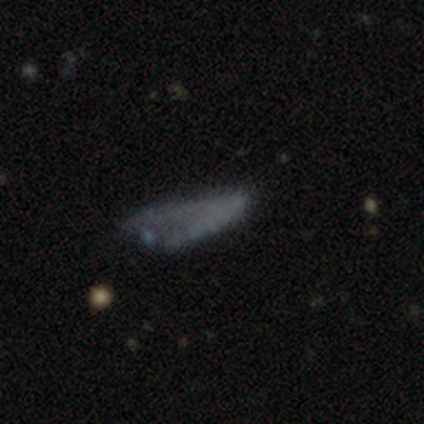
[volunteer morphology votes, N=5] Smooth or featured?
  - smooth: 40% * (tied)
  - featured or disk: 40% * (tied)
  - star or artifact: 20%
How rounded?
  - in between: 100% *
  - round: 0%
  - cigar-shaped: 0%
Merging?
  - none: 100% *
  - minor disturbance: 0%
  - major disturbance: 0%
  - merger: 0%